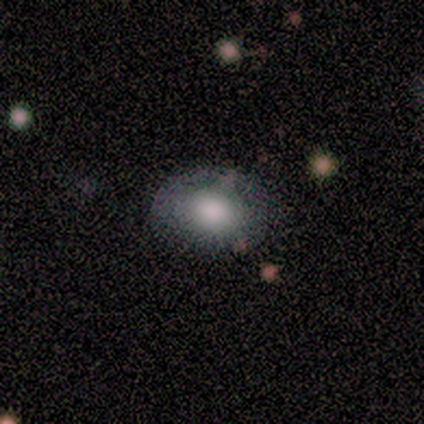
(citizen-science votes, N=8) smooth-or-featured: smooth: 62% | featured or disk: 25% | star or artifact: 12%
  how-rounded: in between: 80% | round: 20% | cigar-shaped: 0%
  merging: none: 86% | minor disturbance: 14% | major disturbance: 0% | merger: 0%